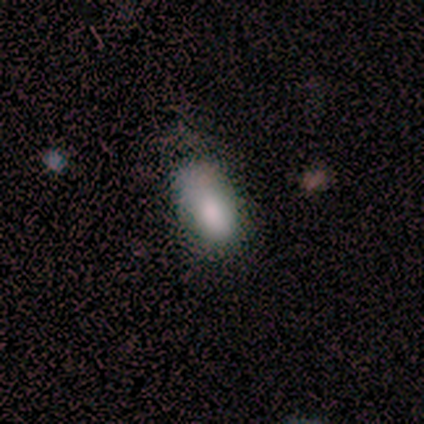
Q: Smooth or featured?
A: smooth (100%)
Q: How rounded?
A: in between (100%)
Q: Merging?
A: minor disturbance (60%); runner-up: none (20%)